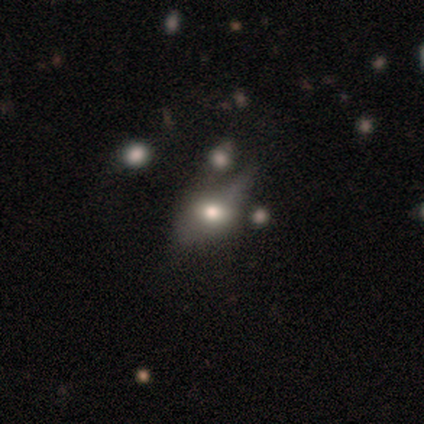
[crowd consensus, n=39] A featured or disk galaxy (46%) with no bar (67%), no spiral arms (92%) and a moderate central bulge (50%). Merging: none (35%).